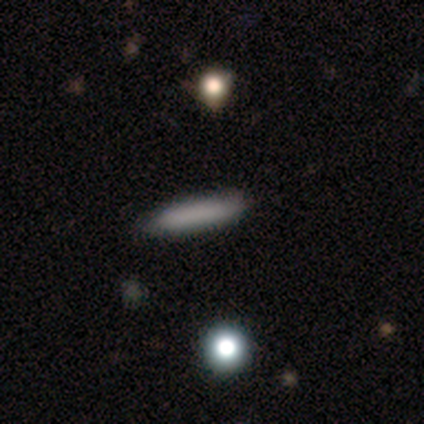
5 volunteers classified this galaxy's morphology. This appears to be a smooth galaxy with no disk features (100%) that is cigar-shaped (60%). Merging: none (80%).